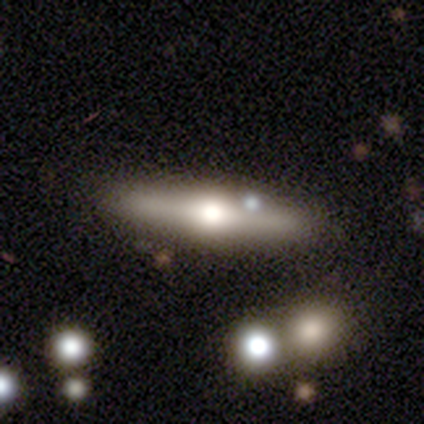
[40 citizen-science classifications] A featured or disk galaxy (65%) viewed edge-on (88%) with a rounded central bulge (96%).

Vote fractions:
- Smooth or featured? featured or disk: 65% / smooth: 28% / star or artifact: 8%
- Edge-on disk? yes: 88% / no: 12%
- Edge-on bulge? rounded: 96% / boxy: 4% / none: 0%
- Merging? none: 54% / merger: 19% / minor disturbance: 0% / major disturbance: 0%